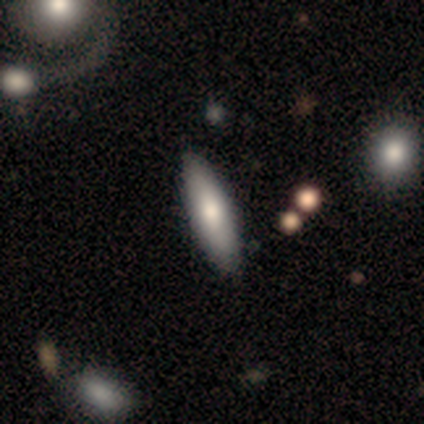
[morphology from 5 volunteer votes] A smooth galaxy with no disk features (80%) that is in between round and cigar-shaped (100%). Merging: none (100%).